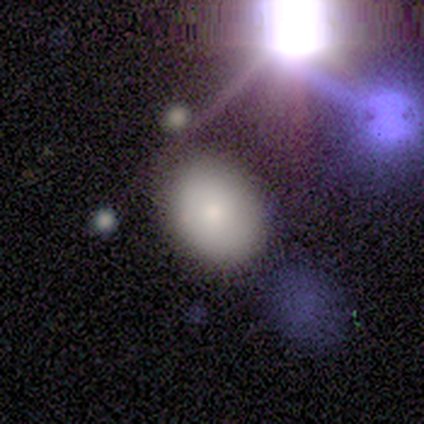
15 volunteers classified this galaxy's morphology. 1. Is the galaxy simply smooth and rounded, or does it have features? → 87% smooth, 7% featured or disk, 7% star or artifact.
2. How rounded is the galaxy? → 92% in between, 8% round, 0% cigar-shaped.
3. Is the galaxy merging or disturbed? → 79% none, 14% minor disturbance, 7% merger, 0% major disturbance.